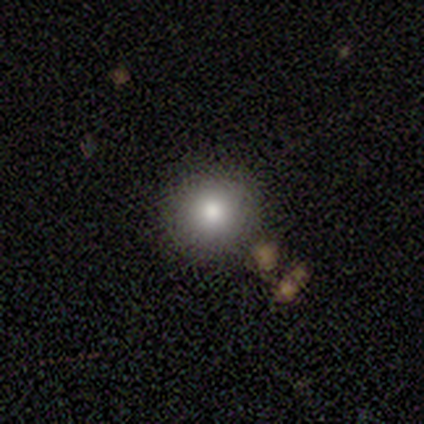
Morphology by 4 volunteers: Smooth or featured?
  - smooth: 100% *
  - featured or disk: 0%
  - star or artifact: 0%
How rounded?
  - round: 75% *
  - in between: 25%
  - cigar-shaped: 0%
Merging?
  - none: 75% *
  - minor disturbance: 25%
  - major disturbance: 0%
  - merger: 0%